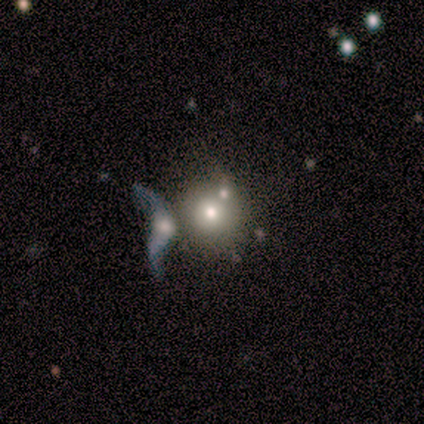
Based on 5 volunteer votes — This appears to be a smooth galaxy with no disk features (40%, tied with featured or disk) that is round (100%). Merging: merger (50%).